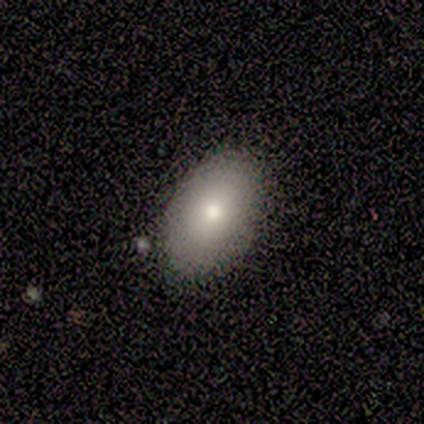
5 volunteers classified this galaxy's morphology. Smooth or featured? smooth (80%)
How rounded? in between (75%)
Merging? none (60%)